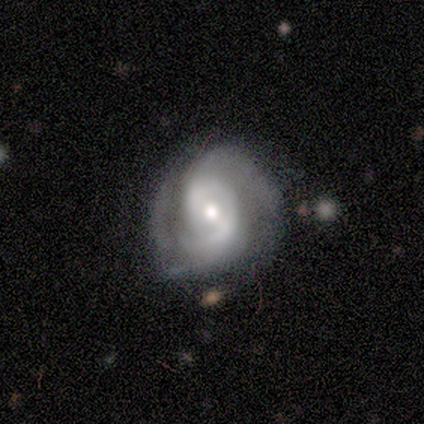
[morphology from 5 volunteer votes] A featured or disk galaxy (100%) with a strong bar (40%, tied with no), 2 (80%) tight (60%) spiral arms (100%) and a moderate central bulge (60%).

Vote fractions:
- Smooth or featured? featured or disk: 100% / smooth: 0% / star or artifact: 0%
- Edge-on disk? no: 100% / yes: 0%
- Bar? strong: 40% (tied) / no: 40% (tied) / weak: 20%
- Spiral arms? yes: 100% / no: 0%
- Spiral winding? tight: 60% / loose: 40% / medium: 0%
- Spiral arm count? 2: 80% / 3: 20% / 1: 0% / 4: 0% / more than 4: 0% / can't tell: 0%
- Bulge size? moderate: 60% / small: 40% / dominant: 0% / large: 0% / none: 0%
- Merging? minor disturbance: 60% / none: 40% / major disturbance: 0% / merger: 0%